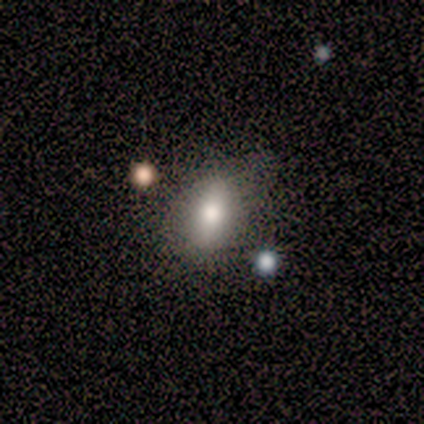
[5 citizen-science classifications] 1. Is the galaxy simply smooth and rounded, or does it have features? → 100% smooth, 0% featured or disk, 0% star or artifact.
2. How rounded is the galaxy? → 60% in between, 40% cigar-shaped, 0% round.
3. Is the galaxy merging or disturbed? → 60% none, 20% minor disturbance, 20% merger, 0% major disturbance.